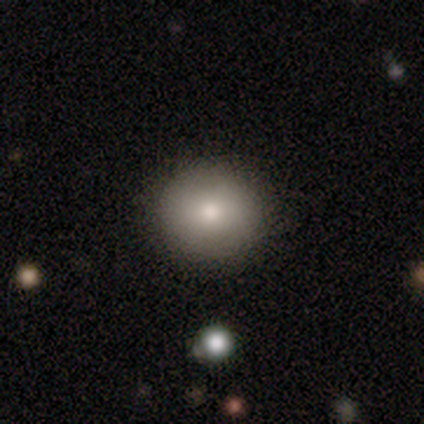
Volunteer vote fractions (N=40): smooth-or-featured: smooth: 75% | featured or disk: 20% | star or artifact: 5%
  how-rounded: round: 90% | in between: 10% | cigar-shaped: 0%
  merging: none: 79% | minor disturbance: 3% | merger: 3% | major disturbance: 0%